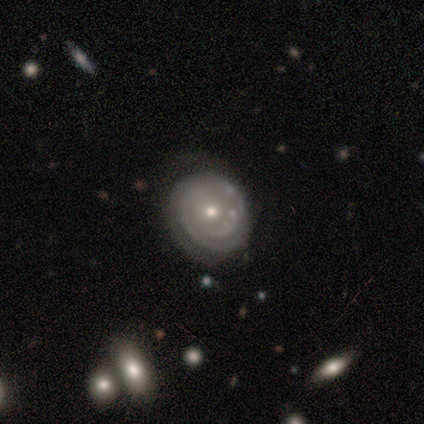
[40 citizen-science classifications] This appears to be a featured or disk galaxy (60%) with no bar (88%), 2 (53%) tight (63%) spiral arms (79%) and a moderate central bulge (50%). Merging: none (56%).